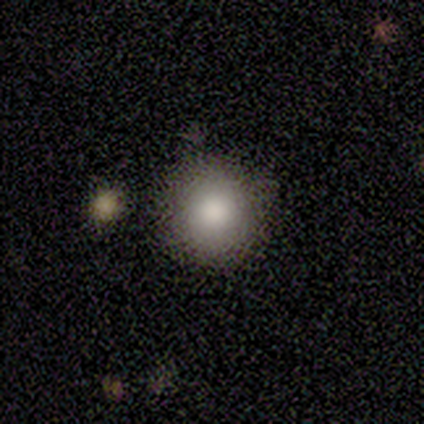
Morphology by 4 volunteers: A smooth galaxy with no disk features (75%) that is round (100%). Merging: none (100%).